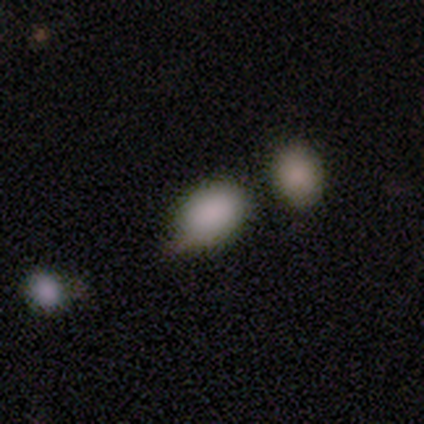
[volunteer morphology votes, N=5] smooth_or_featured: smooth (p=1.00)
how_rounded: in between (p=0.80) [alt: round p=0.20]
merging: none (p=0.40) [tied with: minor disturbance p=0.40]